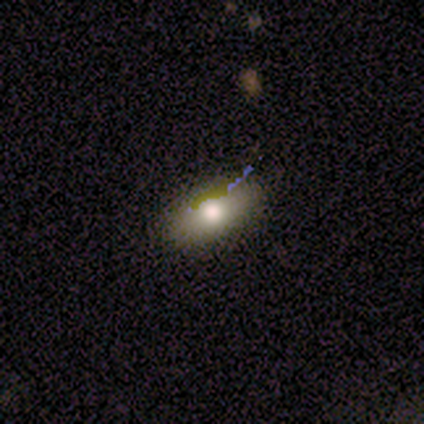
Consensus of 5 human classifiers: smooth-or-featured: smooth: 80% | star or artifact: 20% | featured or disk: 0%
  how-rounded: in between: 75% | round: 25% | cigar-shaped: 0%
  merging: none: 100% | minor disturbance: 0% | major disturbance: 0% | merger: 0%